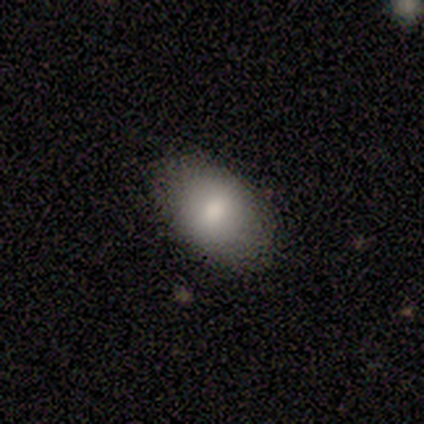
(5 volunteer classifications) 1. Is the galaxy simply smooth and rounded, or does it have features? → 100% smooth, 0% featured or disk, 0% star or artifact.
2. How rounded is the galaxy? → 100% in between, 0% round, 0% cigar-shaped.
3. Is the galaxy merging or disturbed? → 100% none, 0% minor disturbance, 0% major disturbance, 0% merger.